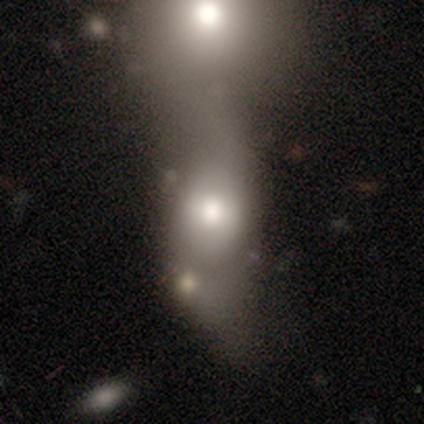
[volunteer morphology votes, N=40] smooth_or_featured: smooth (p=0.57) [alt: featured or disk p=0.40]
how_rounded: in between (p=0.83) [alt: round p=0.13]
merging: merger (p=0.69) [alt: none p=0.15]